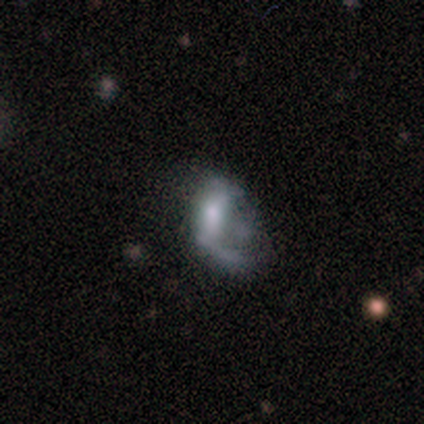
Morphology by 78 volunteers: This is likely a featured or disk galaxy (65%). It is clearly not viewed edge-on (96%). Bar: possibly no (59%). Spiral arm pattern: possibly no (57%). Central bulge: possibly moderate (49%). Merging: marginally major disturbance (34%).